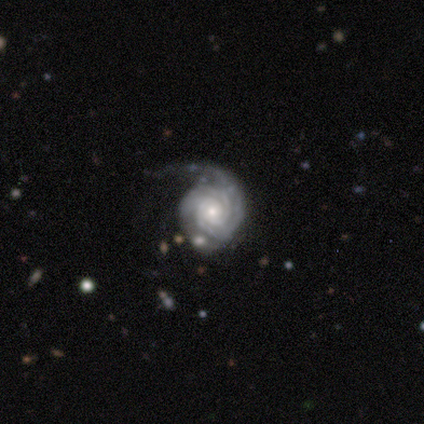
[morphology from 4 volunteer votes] type=featured or disk (75%); edge-on=no (100%); bar=no (67%); spiral arms=yes (100%); winding=tight (100%); arm count=2 (67%); bulge=small (67%); merging=minor disturbance (67%).